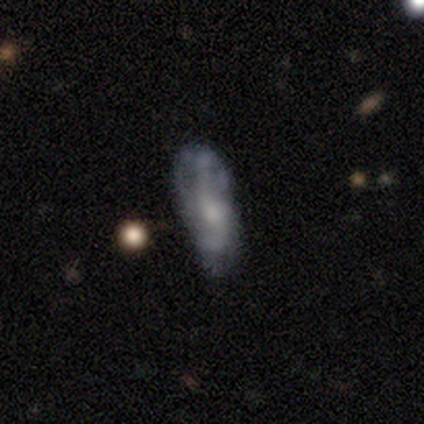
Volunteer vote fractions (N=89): Smooth or featured: featured or disk — 69% (smooth — 28%)
Edge-on disk: no — 92% (yes — 8%)
Bar: no — 59% (weak — 39%)
Spiral arms: yes — 75% (no — 25%)
Spiral winding: medium — 40% (tight — 33%)
Spiral arm count: 2 — 50% (can't tell — 29%)
Bulge size: moderate — 52% (small — 34%)
Merging: none — 56% (minor disturbance — 33%)